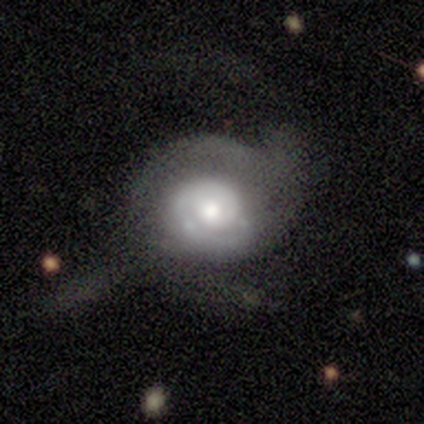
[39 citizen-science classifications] Morphology: type=featured or disk (74%); edge-on=no (97%); bar=no (71%); spiral arms=yes (93%); winding=tight (65%); arm count=1 (38%); bulge=moderate (79%); merging=none (57%).